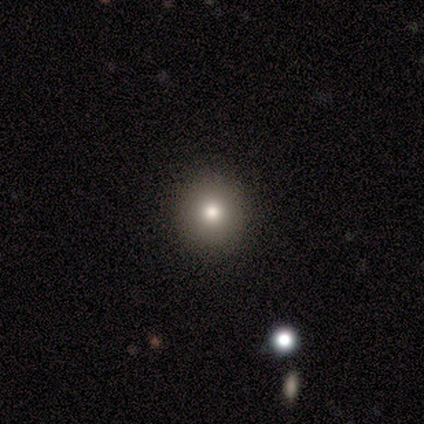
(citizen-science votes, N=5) This appears to be a smooth galaxy with no disk features (60%) that is round (100%). Merging: none (100%).